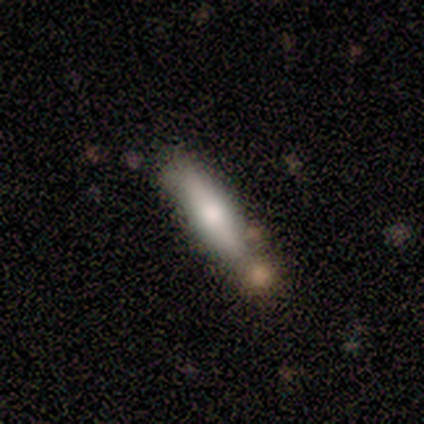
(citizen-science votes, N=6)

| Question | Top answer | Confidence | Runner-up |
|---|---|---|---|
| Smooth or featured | smooth | 67% | featured or disk (33%) |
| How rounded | cigar-shaped | 100% | — |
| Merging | none | 67% | minor disturbance (33%) |